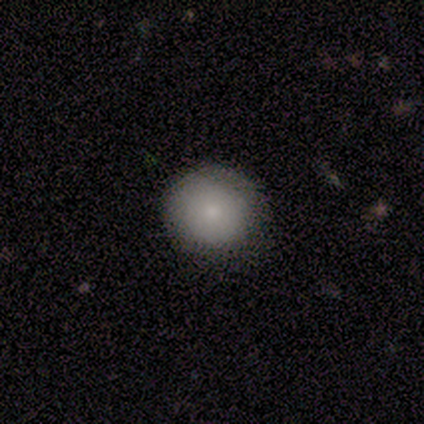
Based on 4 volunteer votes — Smooth or featured? 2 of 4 (50%, tied with featured or disk) said smooth. How rounded? 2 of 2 (100%) said round. Merging? 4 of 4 (100%) said none.